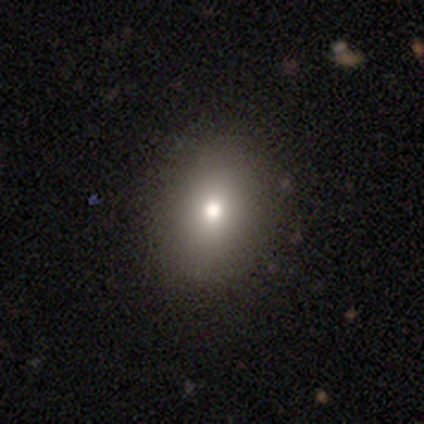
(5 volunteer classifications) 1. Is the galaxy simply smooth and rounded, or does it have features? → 40% smooth (tied), 40% featured or disk (tied), 20% star or artifact.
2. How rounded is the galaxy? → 50% round (tied), 50% in between (tied), 0% cigar-shaped.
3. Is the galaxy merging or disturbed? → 100% none, 0% minor disturbance, 0% major disturbance, 0% merger.